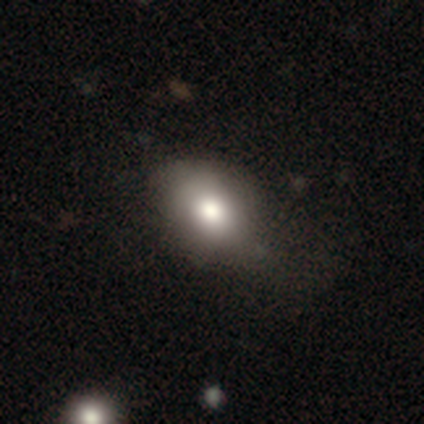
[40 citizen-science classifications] Smooth or featured: smooth — 78% (star or artifact — 12%)
How rounded: in between — 84% (round — 16%)
Merging: none — 57% (minor disturbance — 34%)